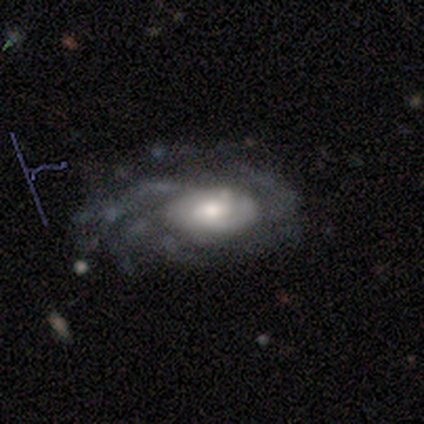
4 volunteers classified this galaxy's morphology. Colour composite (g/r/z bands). It shows a featured or disk galaxy (100%) with a weak bar (50%, tied with no), more than 4 (50%, tied with can't tell) medium (50%) spiral arms (100%) and a large central bulge (50%). Merging: none (100%).